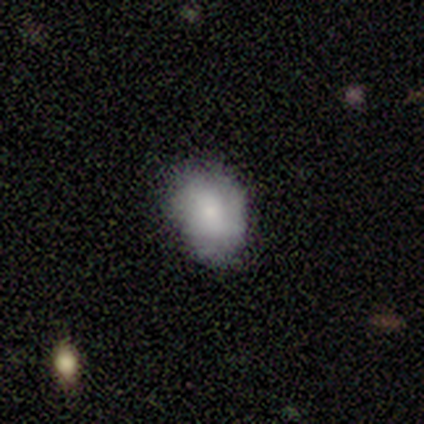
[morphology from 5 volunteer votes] Smooth or featured: smooth — 60% (star or artifact — 40%)
How rounded: round — 67% (in between — 33%)
Merging: none — 100%